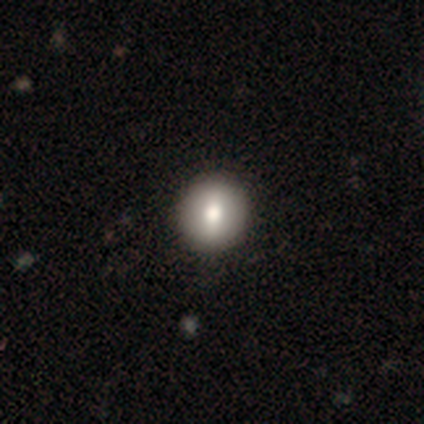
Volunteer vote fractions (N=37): Smooth or featured? smooth (78%)
How rounded? round (90%)
Merging? none (74%)